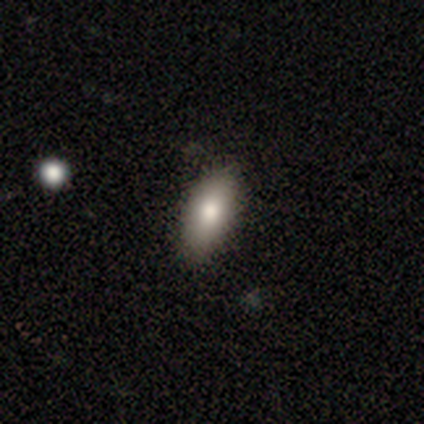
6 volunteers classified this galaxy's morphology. Smooth or featured?
  - smooth: 83% *
  - featured or disk: 17%
  - star or artifact: 0%
How rounded?
  - in between: 100% *
  - round: 0%
  - cigar-shaped: 0%
Merging?
  - none: 100% *
  - minor disturbance: 0%
  - major disturbance: 0%
  - merger: 0%